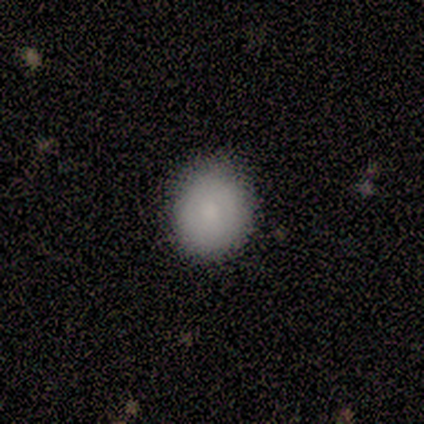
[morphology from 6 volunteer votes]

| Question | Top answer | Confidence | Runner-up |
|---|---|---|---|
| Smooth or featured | smooth | 83% | featured or disk (17%) |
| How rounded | round | 60% | in between (40%) |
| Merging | none | 83% | minor disturbance (17%) |